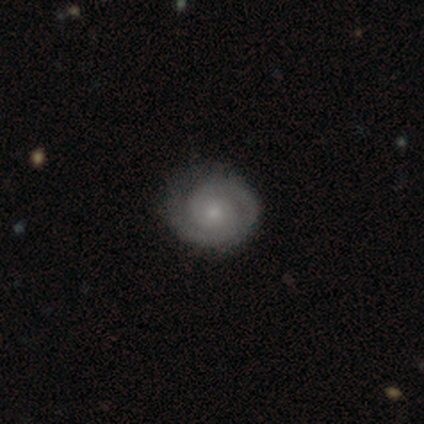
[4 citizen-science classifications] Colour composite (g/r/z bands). It shows a featured or disk galaxy (100%) with no bar (75%), 2 (75%) tight (50%) spiral arms (100%) and a small central bulge (100%). Merging: none (100%).